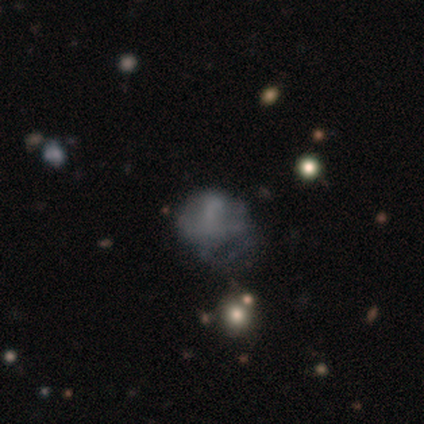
smooth-or-featured: featured or disk: 45% | smooth: 38% | star or artifact: 17%
  disk-edge-on: no: 97% | yes: 3%
    bar: no: 91% | strong: 6% | weak: 3%
    has-spiral-arms: no: 88% | yes: 12%
    bulge-size: none: 94% | moderate: 3% | small: 3% | dominant: 0% | large: 0%
  merging: major disturbance: 22% | minor disturbance: 15% | none: 11% | merger: 9%